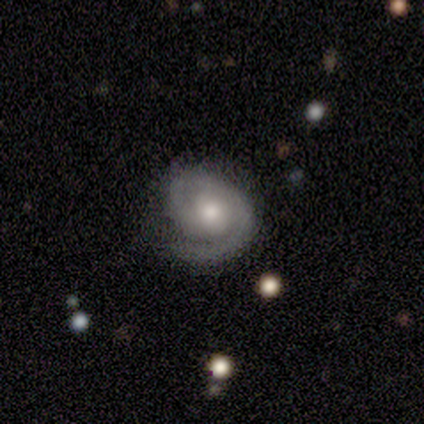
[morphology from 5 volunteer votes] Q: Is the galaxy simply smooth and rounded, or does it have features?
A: featured or disk — 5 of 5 (100%).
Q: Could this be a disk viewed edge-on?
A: no — 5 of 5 (100%).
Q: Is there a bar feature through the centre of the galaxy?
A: no — 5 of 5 (100%).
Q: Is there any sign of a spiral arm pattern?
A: yes — 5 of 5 (100%).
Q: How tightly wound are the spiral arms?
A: tight — 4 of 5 (80%).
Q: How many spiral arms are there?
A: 2 — 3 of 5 (60%).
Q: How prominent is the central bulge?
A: moderate — 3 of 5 (60%).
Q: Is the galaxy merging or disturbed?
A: none — 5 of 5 (100%).